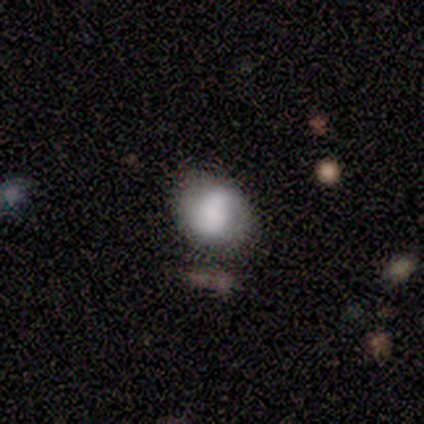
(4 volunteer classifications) Smooth or featured: smooth — 50% (featured or disk — 25%)
How rounded: round — 100%
Merging: none — 67% (major disturbance — 33%)